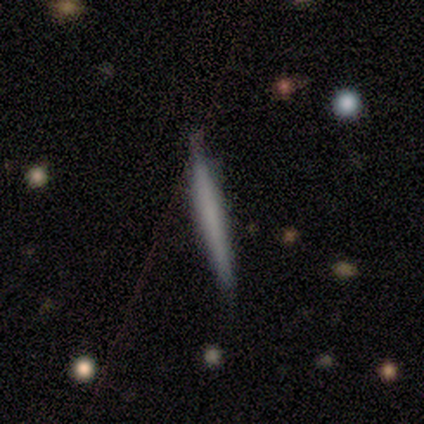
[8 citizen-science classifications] Volunteers were most divided on "smooth or featured": smooth: 62%, featured or disk: 38%, star or artifact: 0%. More confident: how rounded — cigar-shaped (100%); merging — none (88%).